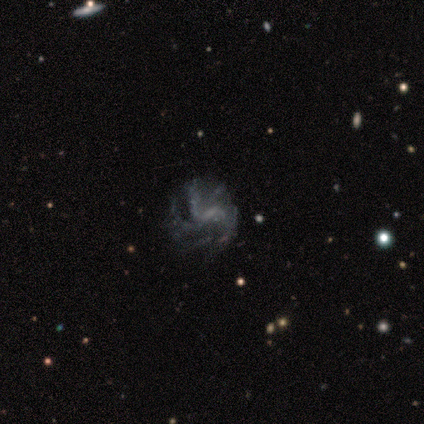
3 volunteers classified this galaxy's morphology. smooth_or_featured: featured or disk (p=1.00)
disk_edge_on: no (p=1.00)
bar: weak (p=0.67) [alt: no p=0.33]
has_spiral_arms: yes (p=0.67) [alt: no p=0.33]
spiral_winding: medium (p=0.50) [tied with: loose p=0.50]
spiral_arm_count: 2 (p=0.50) [tied with: more than 4 p=0.50]
bulge_size: none (p=1.00)
merging: minor disturbance (p=0.67) [alt: none p=0.33]